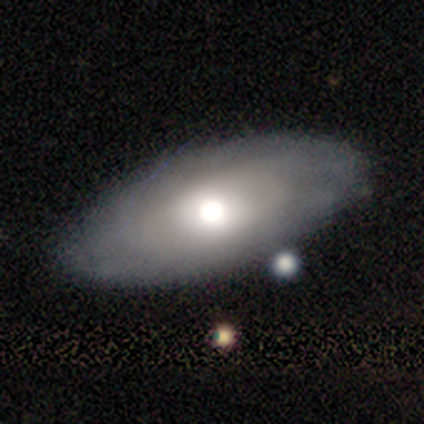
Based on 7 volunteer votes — Overall: smooth (43%, tied with featured or disk). How rounded: in between (100%). Merging: none (83%).